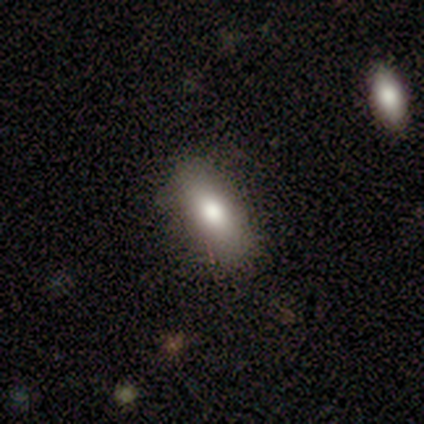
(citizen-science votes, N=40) A smooth galaxy with no disk features (92%) that is in between round and cigar-shaped (78%).

Vote fractions:
- Smooth or featured? smooth: 92% / featured or disk: 5% / star or artifact: 2%
- How rounded? in between: 78% / cigar-shaped: 22% / round: 0%
- Merging? none: 85% / minor disturbance: 13% / merger: 3% / major disturbance: 0%